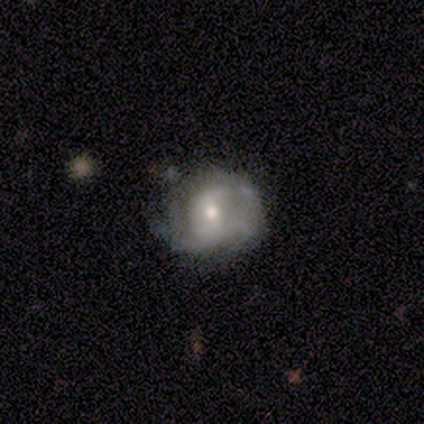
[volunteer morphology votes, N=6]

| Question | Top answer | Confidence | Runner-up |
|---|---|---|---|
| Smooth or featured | featured or disk | 83% | smooth (17%) |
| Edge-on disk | no | 100% | — |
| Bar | no | 80% | weak (20%) |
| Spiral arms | yes | 60% | no (40%) |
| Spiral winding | medium | 67% | tight (33%) |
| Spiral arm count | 2 | 67% | can't tell (33%) |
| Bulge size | small | 60% | moderate (40%) |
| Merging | none | 67% | minor disturbance (33%) |